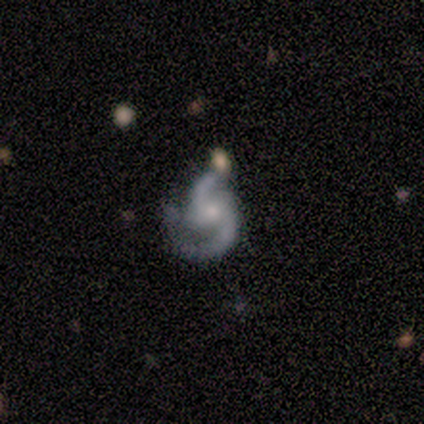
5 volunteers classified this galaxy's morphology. Volunteers were most divided on "spiral winding": medium: 60%, loose: 40%, tight: 0%. More confident: smooth or featured — featured or disk (100%); edge-on disk — no (100%); spiral arms — yes (100%); bulge size — small (80%); merging — none (60%); bar — weak (60%); spiral arm count — 2 (60%).